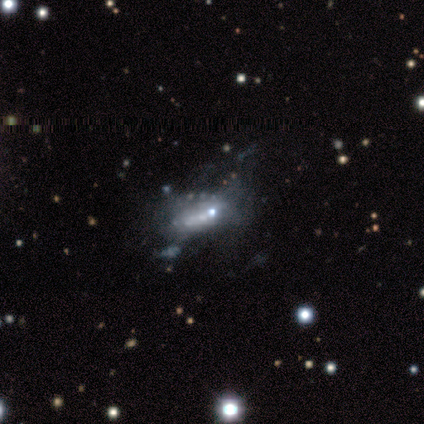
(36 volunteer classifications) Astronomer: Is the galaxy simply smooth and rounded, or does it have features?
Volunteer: featured or disk — 67%.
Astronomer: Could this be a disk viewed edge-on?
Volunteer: no — 83%.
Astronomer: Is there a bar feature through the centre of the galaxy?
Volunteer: no — 100%.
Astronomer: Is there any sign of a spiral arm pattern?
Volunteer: no — 100%.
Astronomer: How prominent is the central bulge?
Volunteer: none — 45% (runner-up: small, 40%).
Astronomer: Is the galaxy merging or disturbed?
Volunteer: major disturbance — 42% (runner-up: none, 35%).